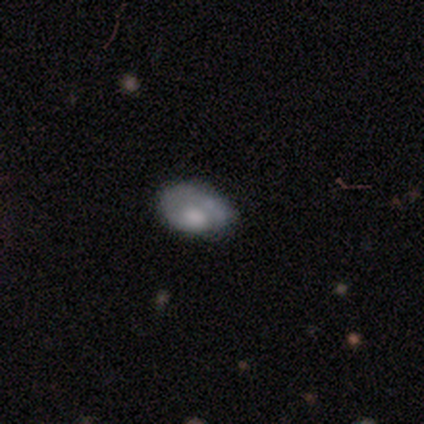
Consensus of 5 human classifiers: This appears to be a smooth galaxy with no disk features (60%) that is in between round and cigar-shaped (100%). Merging: none (40%, tied with minor disturbance).